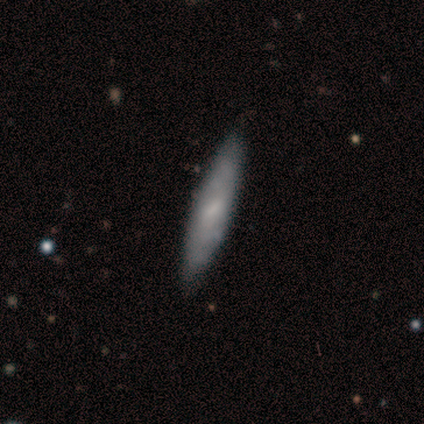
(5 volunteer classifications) Volunteers were most divided on "how rounded": cigar-shaped: 75%, in between: 25%, round: 0%. More confident: merging — none (100%); smooth or featured — smooth (80%).